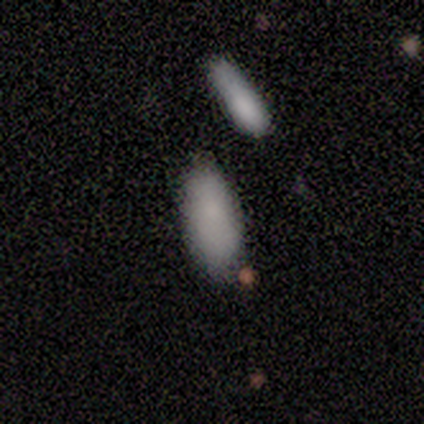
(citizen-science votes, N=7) smooth_or_featured: smooth (p=1.00)
how_rounded: in between (p=0.71) [alt: cigar-shaped p=0.29]
merging: none (p=0.57) [alt: minor disturbance p=0.43]